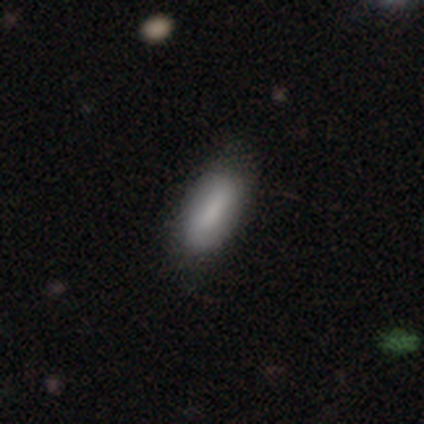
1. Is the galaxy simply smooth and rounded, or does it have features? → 86% smooth, 8% star or artifact, 6% featured or disk.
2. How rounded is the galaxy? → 94% in between, 6% cigar-shaped, 0% round.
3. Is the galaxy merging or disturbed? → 88% none, 12% minor disturbance, 0% major disturbance, 0% merger.